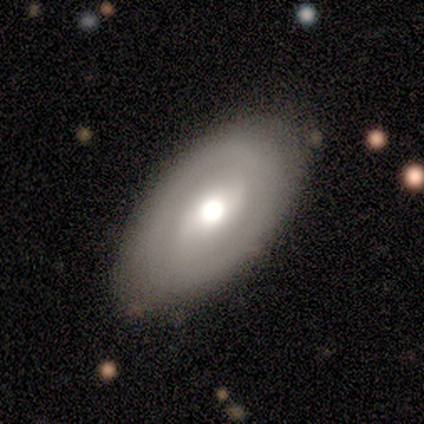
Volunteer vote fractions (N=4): Smooth or featured?
  - featured or disk: 75% *
  - smooth: 25%
  - star or artifact: 0%
Edge-on disk?
  - no: 100% *
  - yes: 0%
Bar?
  - no: 100% *
  - strong: 0%
  - weak: 0%
Spiral arms?
  - no: 67% *
  - yes: 33%
Bulge size?
  - moderate: 67% *
  - none: 33%
  - dominant: 0%
  - large: 0%
  - small: 0%
Merging?
  - none: 75% *
  - merger: 25%
  - minor disturbance: 0%
  - major disturbance: 0%